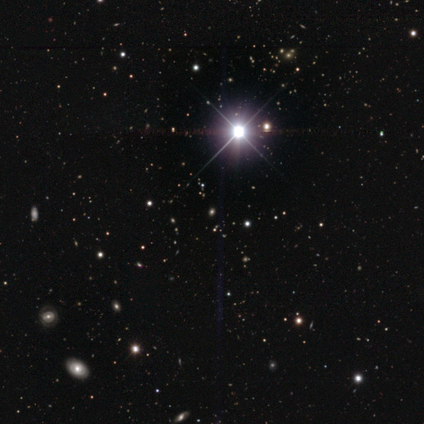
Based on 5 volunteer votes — Volunteers were most divided on "smooth or featured": star or artifact: 60%, smooth: 20%, featured or disk: 20%.